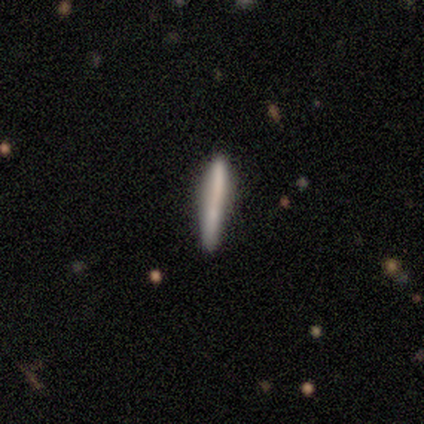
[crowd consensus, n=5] smooth_or_featured: smooth (p=0.60) [alt: featured or disk p=0.40]
how_rounded: cigar-shaped (p=1.00)
merging: none (p=0.60) [alt: minor disturbance p=0.40]